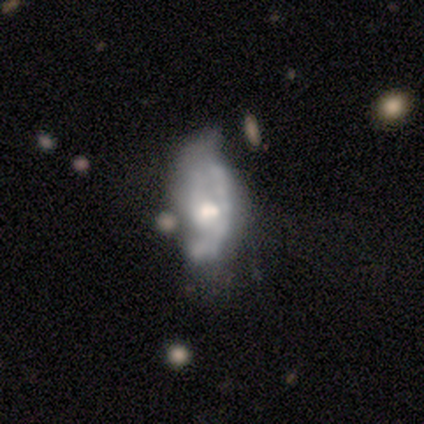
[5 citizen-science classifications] Smooth or featured: smooth — 40% (tied with featured or disk — 40%)
How rounded: in between — 100%
Merging: major disturbance — 75% (merger — 25%)